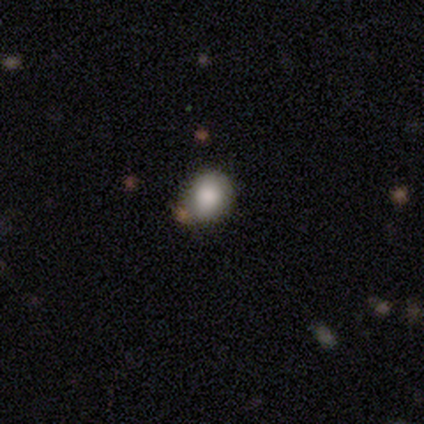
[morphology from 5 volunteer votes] Smooth or featured: smooth — 80% (star or artifact — 20%)
How rounded: round — 75% (in between — 25%)
Merging: none — 75% (minor disturbance — 25%)